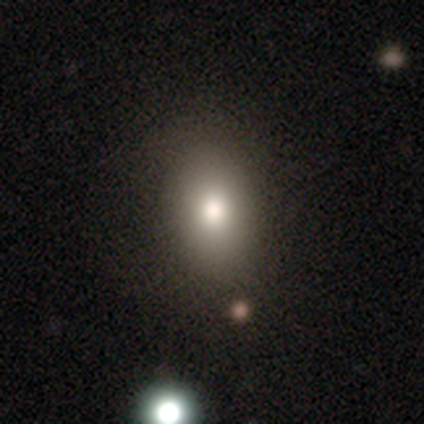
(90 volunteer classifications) Smooth or featured?
  - smooth: 82% *
  - star or artifact: 11%
  - featured or disk: 7%
How rounded?
  - in between: 73% *
  - round: 22%
  - cigar-shaped: 5%
Merging?
  - none: 78% *
  - minor disturbance: 14%
  - major disturbance: 6%
  - merger: 2%